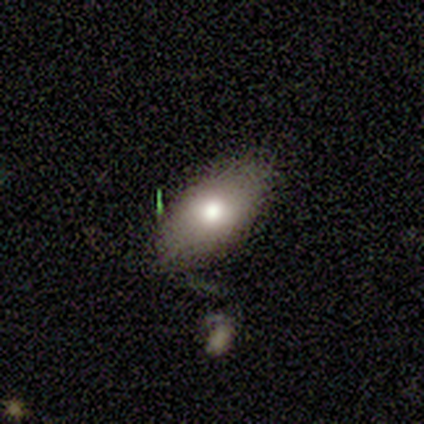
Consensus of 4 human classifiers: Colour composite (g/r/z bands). It shows a smooth galaxy with no disk features (75%) that is in between round and cigar-shaped (100%). Merging: none (75%).